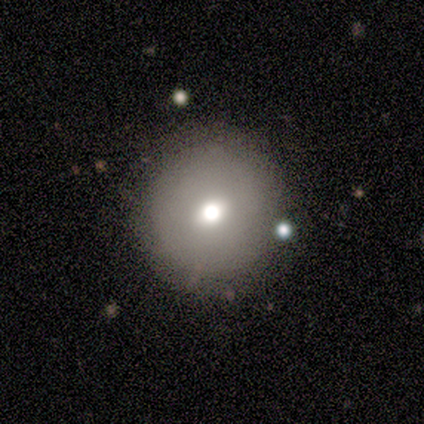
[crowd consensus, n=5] This is likely a smooth galaxy (60%). How rounded: clearly round (100%). Merging: clearly none (100%).